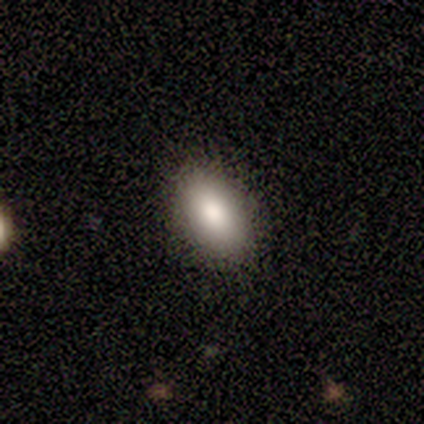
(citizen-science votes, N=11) smooth-or-featured: smooth: 100% | featured or disk: 0% | star or artifact: 0%
  how-rounded: in between: 91% | cigar-shaped: 9% | round: 0%
  merging: none: 73% | minor disturbance: 27% | major disturbance: 0% | merger: 0%